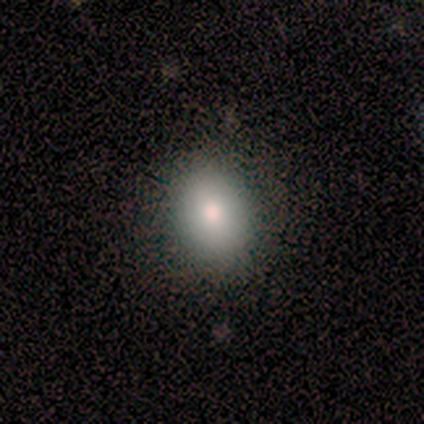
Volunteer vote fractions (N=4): Smooth or featured?
  - smooth: 100% *
  - featured or disk: 0%
  - star or artifact: 0%
How rounded?
  - round: 50% * (tied)
  - in between: 50% * (tied)
  - cigar-shaped: 0%
Merging?
  - none: 100% *
  - minor disturbance: 0%
  - major disturbance: 0%
  - merger: 0%